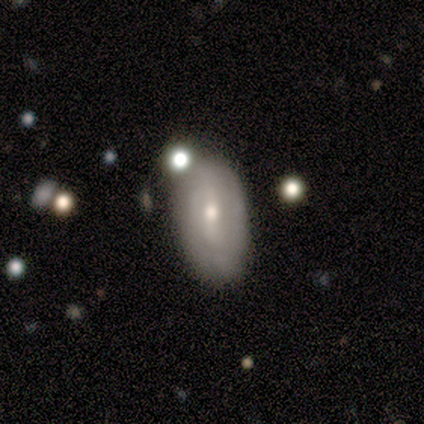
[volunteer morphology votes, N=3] This is likely a star or artifact rather than a galaxy (67%).